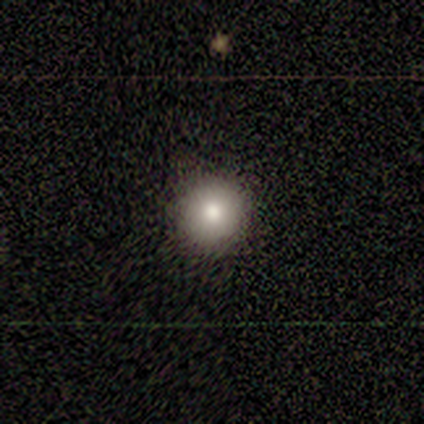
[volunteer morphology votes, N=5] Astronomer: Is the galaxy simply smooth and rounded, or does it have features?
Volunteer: smooth — 100%.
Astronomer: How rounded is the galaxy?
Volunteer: round — 100%.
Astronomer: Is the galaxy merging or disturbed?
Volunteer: none — 80%.